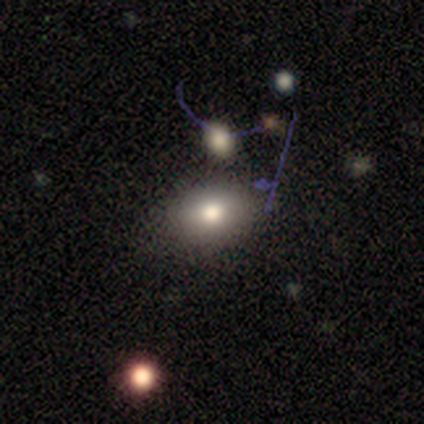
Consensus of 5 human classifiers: This is clearly a smooth galaxy (80%). How rounded: possibly round (50%, tied with in between). Merging: likely none (75%).